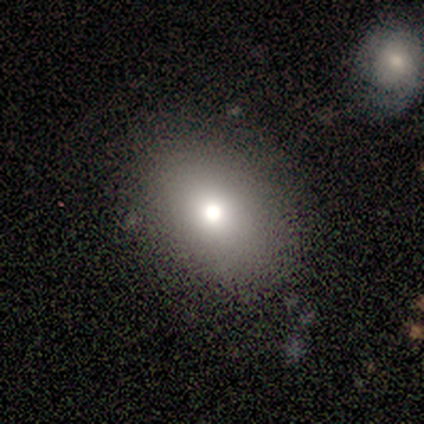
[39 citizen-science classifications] smooth-or-featured: smooth: 59% | featured or disk: 28% | star or artifact: 13%
  how-rounded: in between: 57% | round: 43% | cigar-shaped: 0%
  merging: none: 79% | minor disturbance: 15% | major disturbance: 3% | merger: 3%